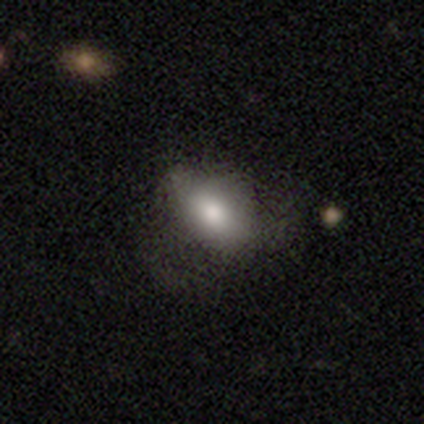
A smooth galaxy with no disk features (72%) that is in between round and cigar-shaped (93%).

Vote fractions:
- Smooth or featured? smooth: 72% / featured or disk: 26% / star or artifact: 3%
- How rounded? in between: 93% / round: 7% / cigar-shaped: 0%
- Merging? none: 47% / major disturbance: 24% / minor disturbance: 11% / merger: 0%